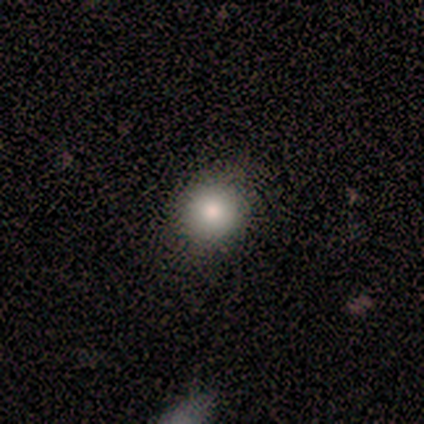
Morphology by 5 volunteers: smooth-or-featured: smooth: 100% | featured or disk: 0% | star or artifact: 0%
  how-rounded: round: 80% | in between: 20% | cigar-shaped: 0%
  merging: none: 80% | minor disturbance: 20% | major disturbance: 0% | merger: 0%